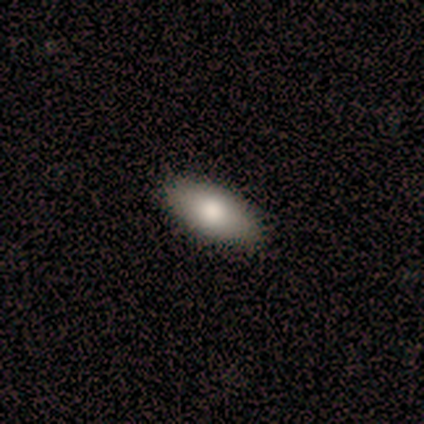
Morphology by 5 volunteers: smooth_or_featured: smooth (p=0.80) [alt: star or artifact p=0.20]
how_rounded: in between (p=1.00)
merging: none (p=1.00)